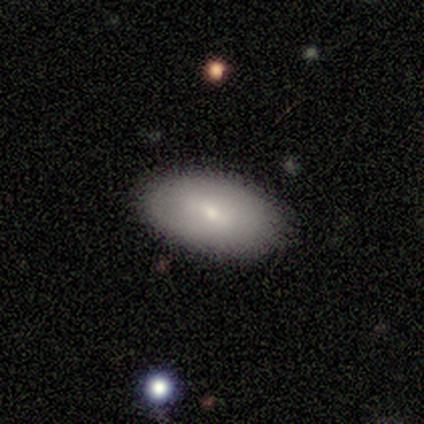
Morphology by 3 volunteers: type=smooth (33%, tied with featured or disk and star or artifact); roundness=in between (100%); merging=none (100%).